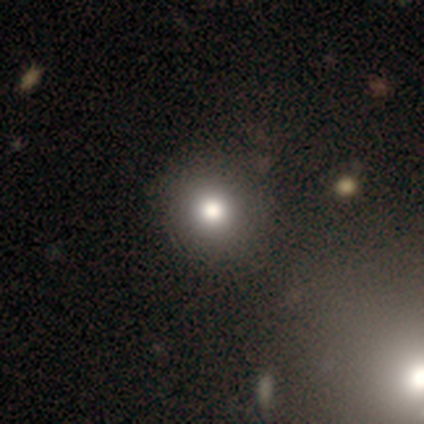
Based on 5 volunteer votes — A smooth galaxy with no disk features (60%) that is round (100%).

Vote fractions:
- Smooth or featured? smooth: 60% / star or artifact: 40% / featured or disk: 0%
- How rounded? round: 100% / in between: 0% / cigar-shaped: 0%
- Merging? none: 100% / minor disturbance: 0% / major disturbance: 0% / merger: 0%